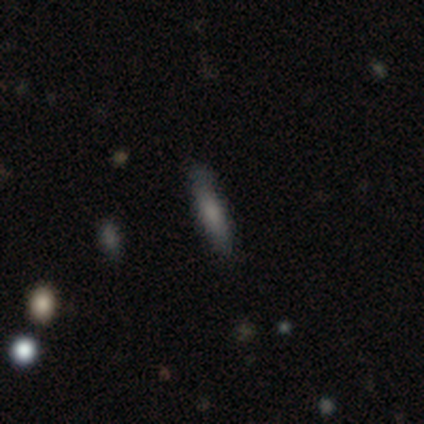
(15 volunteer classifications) smooth_or_featured: smooth (p=0.73) [alt: featured or disk p=0.20]
how_rounded: cigar-shaped (p=0.82) [alt: in between p=0.18]
merging: none (p=0.79) [alt: minor disturbance p=0.21]